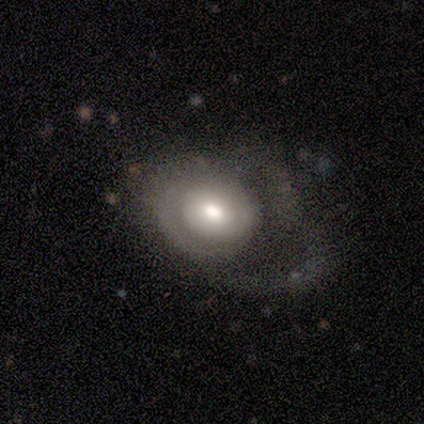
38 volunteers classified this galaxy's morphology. Smooth or featured? 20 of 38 (53%) said smooth. How rounded? 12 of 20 (60%) said round. Merging? 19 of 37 (51%) said major disturbance.